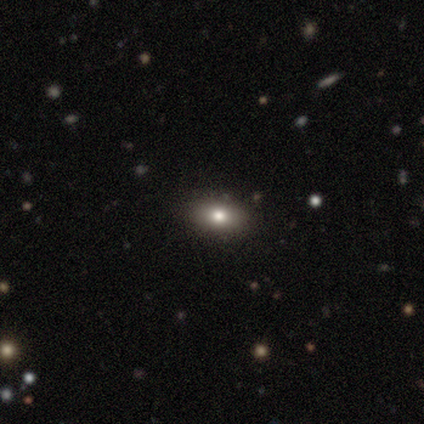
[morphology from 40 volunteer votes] smooth_or_featured: smooth (p=0.85) [alt: featured or disk p=0.07]
how_rounded: in between (p=0.94) [alt: round p=0.06]
merging: none (p=0.95) [alt: minor disturbance p=0.05]